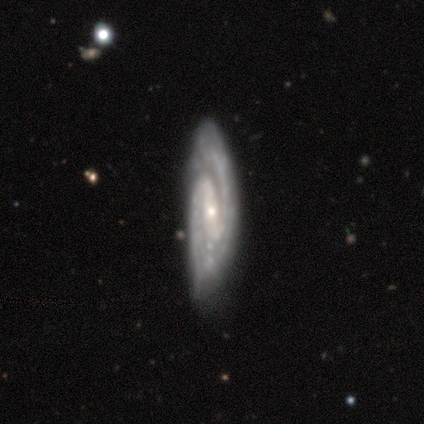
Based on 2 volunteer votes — Overall: smooth (50%, tied with featured or disk). How rounded: cigar-shaped (100%). Merging: minor disturbance (100%).